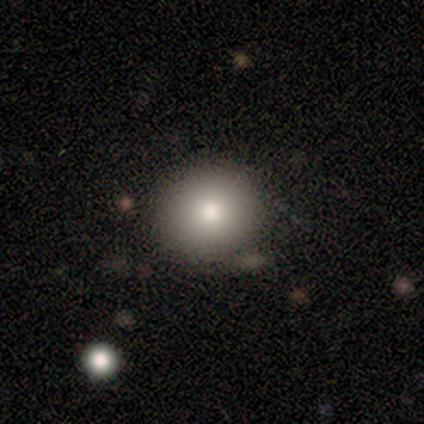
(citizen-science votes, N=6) Overall: smooth (100%). How rounded: round (83%). Merging: none (67%; minor disturbance 33%).